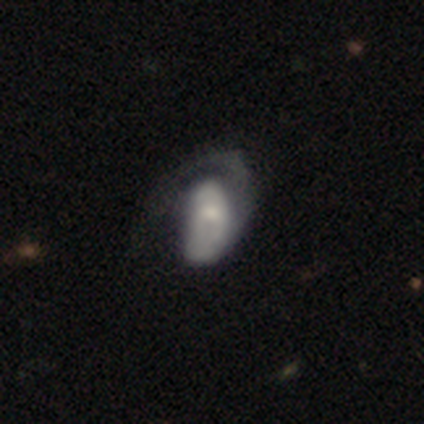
Smooth or featured: smooth — 55% (featured or disk — 36%)
How rounded: in between — 83% (round — 17%)
Merging: major disturbance — 80% (none — 10%)